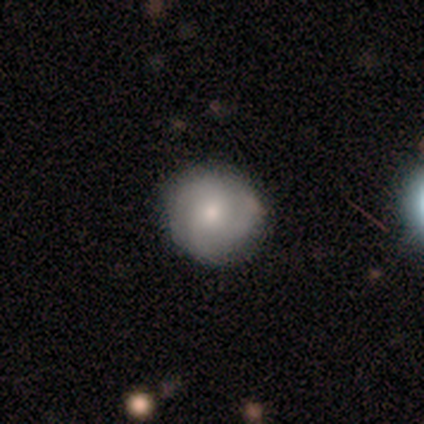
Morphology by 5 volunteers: A smooth galaxy with no disk features (60%) that is round (100%). Merging: none (80%).